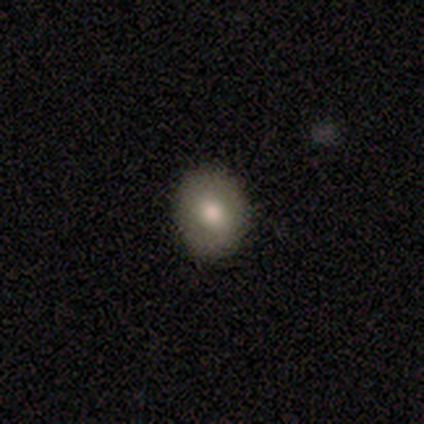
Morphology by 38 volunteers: Smooth or featured: smooth — 87% (star or artifact — 8%)
How rounded: round — 73% (in between — 27%)
Merging: none — 83% (minor disturbance — 17%)